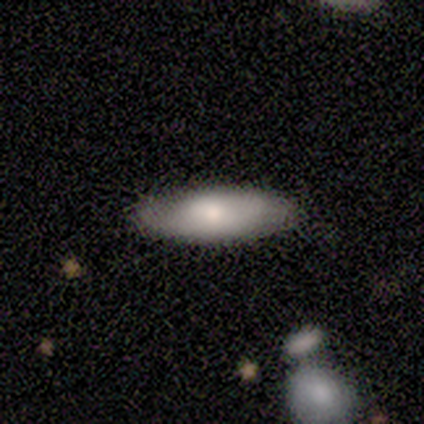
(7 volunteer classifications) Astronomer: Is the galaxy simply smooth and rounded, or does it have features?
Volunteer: smooth — 57%.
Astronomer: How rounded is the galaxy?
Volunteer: cigar-shaped — 75%.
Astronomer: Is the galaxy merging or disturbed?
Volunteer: none — 60% (runner-up: minor disturbance, 40%).